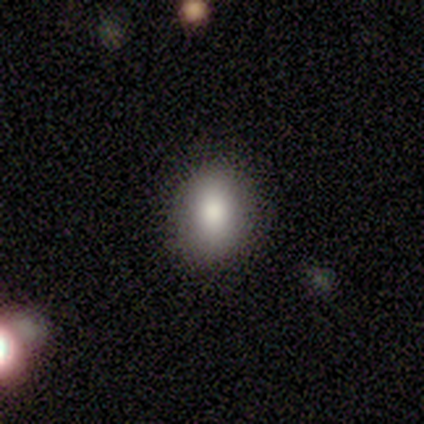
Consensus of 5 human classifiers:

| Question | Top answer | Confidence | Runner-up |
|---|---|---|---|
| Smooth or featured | smooth | 100% | — |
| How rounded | in between | 80% | round (20%) |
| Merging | none | 100% | — |